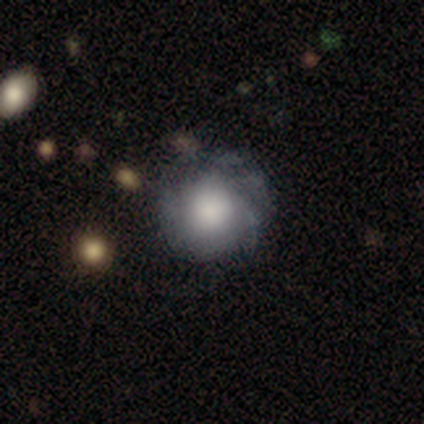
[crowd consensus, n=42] A featured or disk galaxy (55%) with no bar (96%), tight (85%) spiral arms (57%) and a large central bulge (70%). Merging: none (42%).